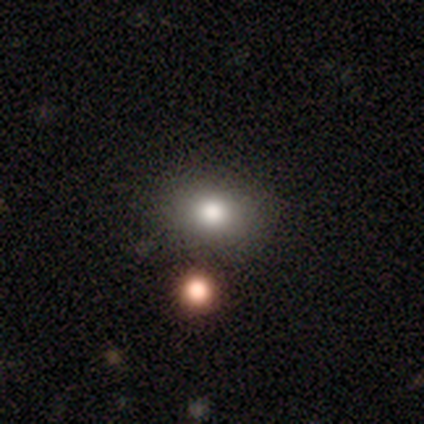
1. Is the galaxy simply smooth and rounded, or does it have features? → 100% smooth, 0% featured or disk, 0% star or artifact.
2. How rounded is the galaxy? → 80% in between, 20% round, 0% cigar-shaped.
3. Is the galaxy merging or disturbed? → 60% none, 20% minor disturbance, 20% merger, 0% major disturbance.